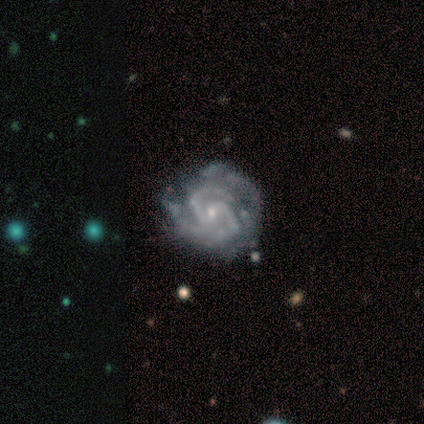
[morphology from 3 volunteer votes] Q: Smooth or featured?
A: featured or disk (100%)
Q: Edge-on disk?
A: no (100%)
Q: Bar?
A: weak (67%); runner-up: no (33%)
Q: Spiral arms?
A: yes (100%)
Q: Spiral winding?
A: tight (100%)
Q: Spiral arm count?
A: 2 (100%)
Q: Bulge size?
A: small (100%)
Q: Merging?
A: major disturbance (67%); runner-up: minor disturbance (33%)